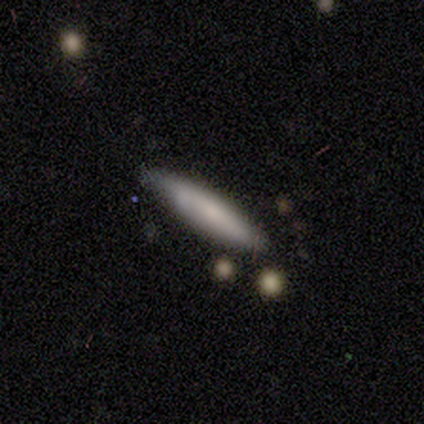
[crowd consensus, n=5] Overall: featured or disk (60%; smooth 40%). Edge-on disk: yes (67%; no 33%). Edge-on bulge: boxy (50%, tied with rounded). Merging: none (100%).